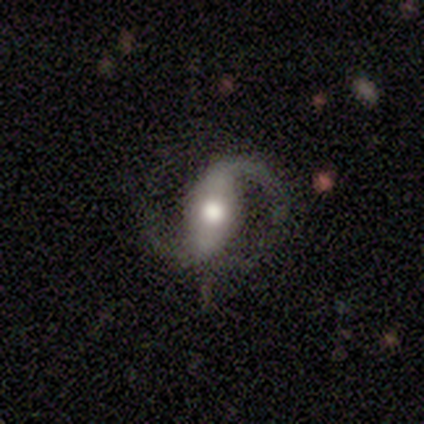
smooth-or-featured: featured or disk: 80% | star or artifact: 20% | smooth: 0%
  disk-edge-on: no: 100% | yes: 0%
    bar: weak: 50% | strong: 25% | no: 25%
    has-spiral-arms: yes: 100% | no: 0%
      spiral-winding: medium: 50% (tied) | loose: 50% (tied) | tight: 0%
      spiral-arm-count: 2: 75% | 1: 25% | 3: 0% | 4: 0% | more than 4: 0% | can't tell: 0%
    bulge-size: moderate: 75% | large: 25% | dominant: 0% | small: 0% | none: 0%
  merging: none: 75% | minor disturbance: 25% | major disturbance: 0% | merger: 0%